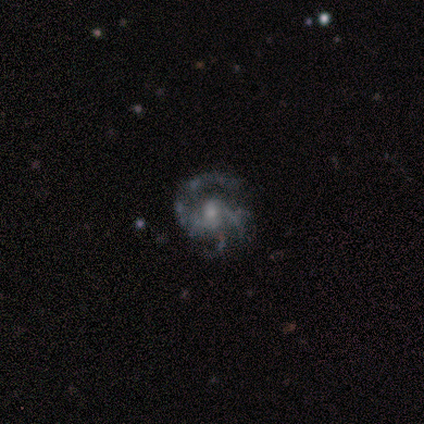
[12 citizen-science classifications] Smooth or featured? featured or disk (92%)
Edge-on disk? no (100%)
Bar? no (64%)
Spiral arms? yes (91%)
Spiral winding? medium (40%)
Spiral arm count? 3 (50%)
Bulge size? small (64%)
Merging? none (73%)